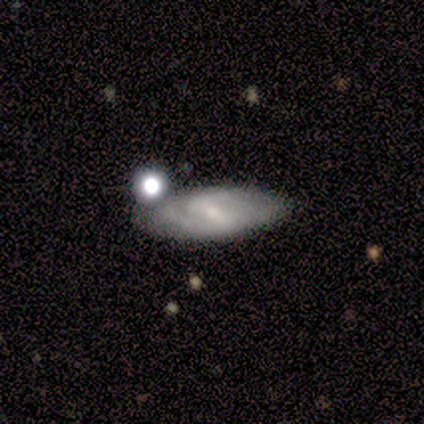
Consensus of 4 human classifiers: This is likely a featured or disk galaxy (75%). It is clearly not viewed edge-on (100%). Bar: marginally strong (33%, tied with weak and no). Spiral arm pattern: clearly yes (100%). Spiral arm count: likely 2 (67%). Spiral winding: marginally tight (33%, tied with medium and loose). Central bulge: clearly small (100%). Merging: likely none (75%).